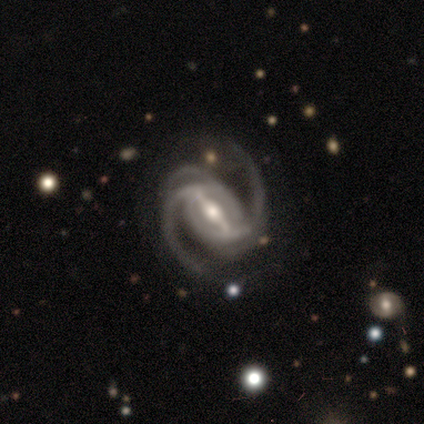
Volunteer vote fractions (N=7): Smooth or featured: featured or disk — 100%
Edge-on disk: no — 100%
Bar: strong — 86% (weak — 14%)
Spiral arms: yes — 100%
Spiral winding: medium — 57% (loose — 29%)
Spiral arm count: 2 — 71% (3 — 29%)
Bulge size: moderate — 71% (small — 29%)
Merging: none — 71% (minor disturbance — 14%)